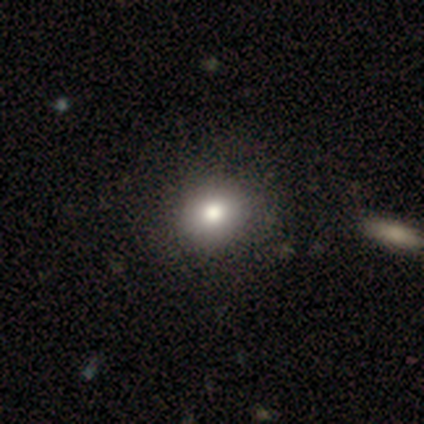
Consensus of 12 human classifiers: Morphology: type=smooth (83%); roundness=round (70%); merging=none (100%).